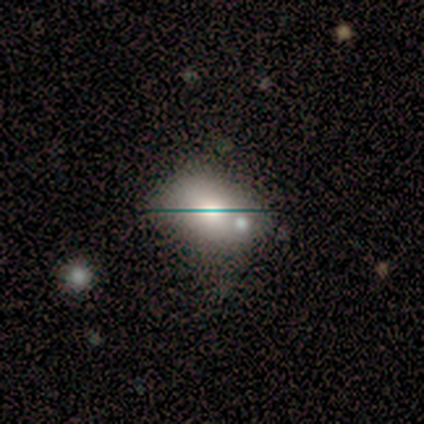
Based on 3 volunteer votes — smooth-or-featured: smooth: 67% | star or artifact: 33% | featured or disk: 0%
  how-rounded: in between: 100% | round: 0% | cigar-shaped: 0%
  merging: none: 100% | minor disturbance: 0% | major disturbance: 0% | merger: 0%